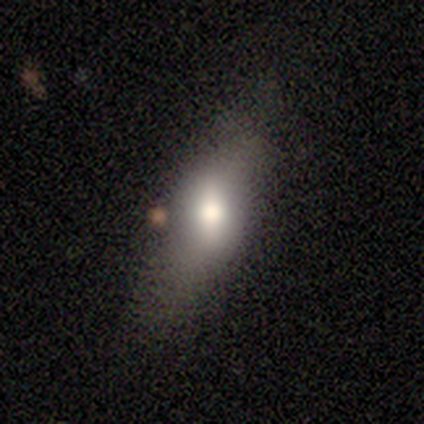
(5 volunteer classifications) This is likely a featured or disk galaxy (60%). It is clearly not viewed edge-on (100%). Bar: likely weak (67%). Spiral arm pattern: clearly no (100%). Central bulge: likely small (67%). Merging: clearly none (80%).